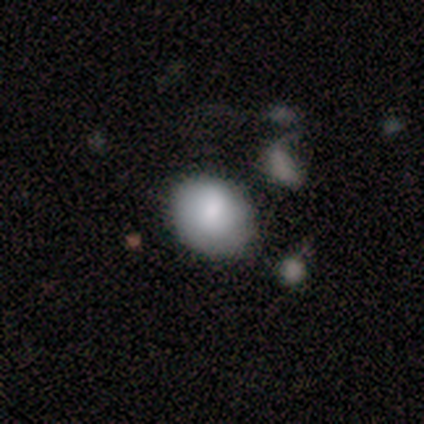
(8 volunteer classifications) smooth 100%, featured or disk 0%, star or artifact 0%. Down the decision tree: how rounded — round (62%); merging — none (62%).